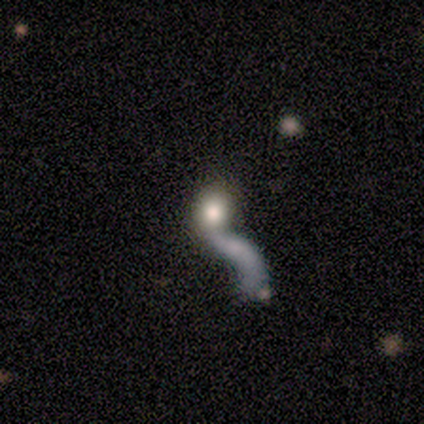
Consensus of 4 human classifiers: Smooth or featured: featured or disk — 50% (smooth — 25%)
Edge-on disk: no — 100%
Bar: no — 100%
Spiral arms: yes — 100%
Spiral winding: loose — 100%
Spiral arm count: 1 — 100%
Bulge size: large — 50% (tied with moderate — 50%)
Merging: minor disturbance — 33% (tied with major disturbance — 33%; merger — 33%)